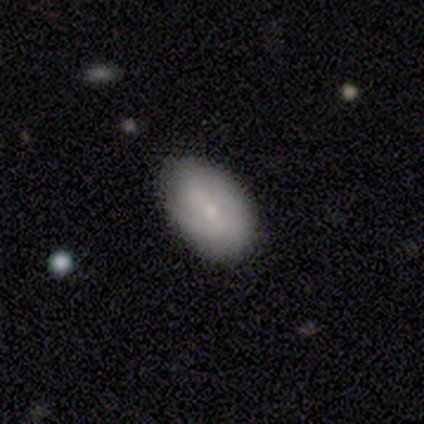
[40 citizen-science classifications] Morphology: type=smooth (68%); roundness=in between (96%); merging=none (62%).